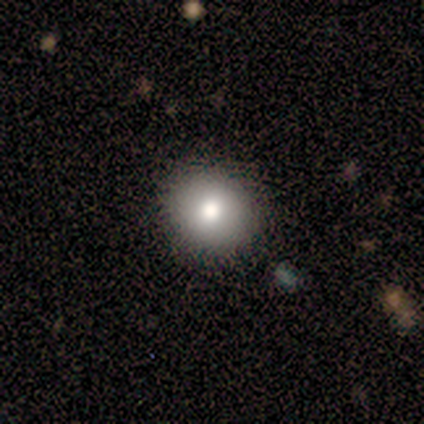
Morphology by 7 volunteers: Smooth or featured? 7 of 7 (100%) said smooth. How rounded? 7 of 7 (100%) said round. Merging? 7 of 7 (100%) said none.